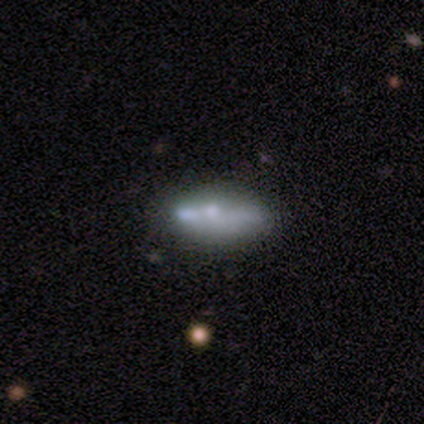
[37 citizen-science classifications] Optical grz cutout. It shows a featured or disk galaxy (59%) with no bar (75%), no spiral arms (100%) and a small central bulge (50%). Merging: none (38%).